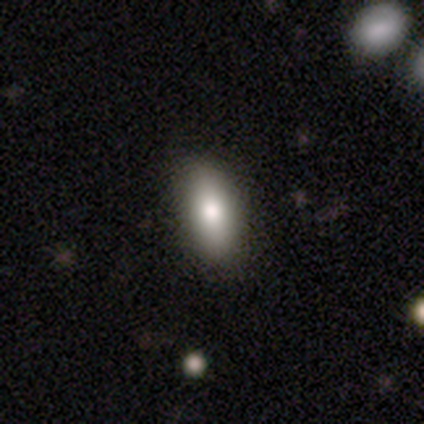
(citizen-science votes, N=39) This is likely a smooth galaxy (79%). How rounded: clearly in between (81%). Merging: clearly none (82%).